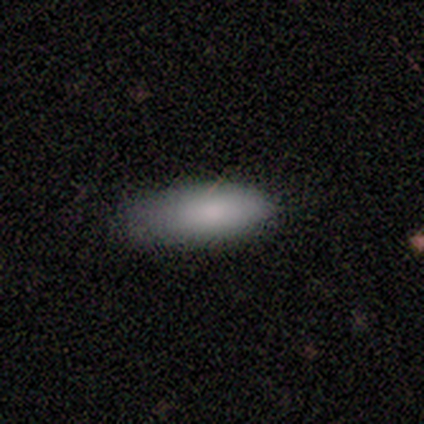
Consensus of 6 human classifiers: Volunteers were most divided on "how rounded": in between: 60%, cigar-shaped: 40%, round: 0%. More confident: smooth or featured — smooth (83%); merging — minor disturbance (60%).